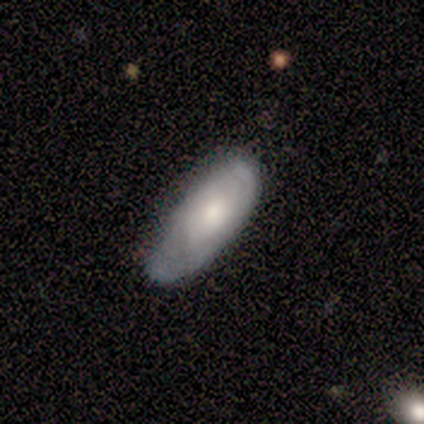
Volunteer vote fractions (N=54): A smooth galaxy with no disk features (54%) that is in between round and cigar-shaped (97%). Merging: none (50%).